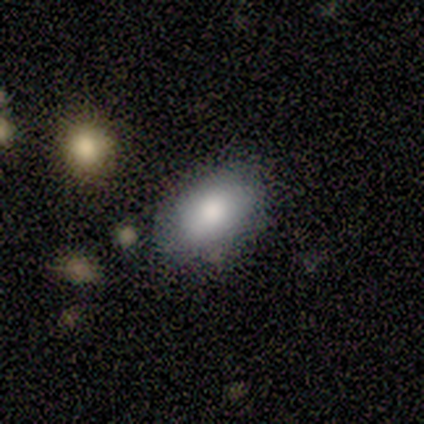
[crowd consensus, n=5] Smooth or featured: smooth — 80% (featured or disk — 20%)
How rounded: in between — 100%
Merging: none — 100%